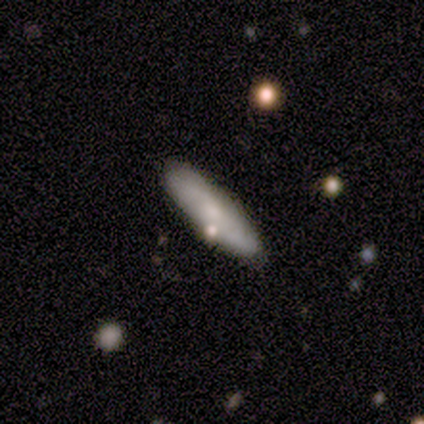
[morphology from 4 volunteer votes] A featured or disk galaxy (75%) viewed edge-on (67%) with no central bulge (100%). Merging: none (100%).